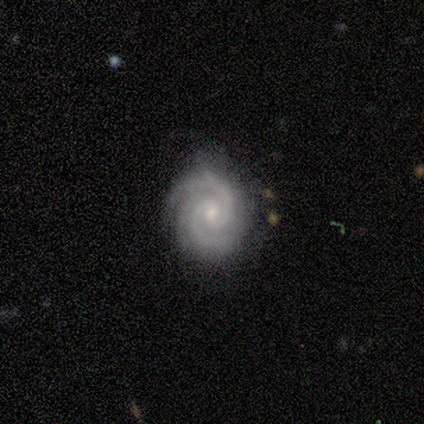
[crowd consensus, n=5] Q: Smooth or featured?
A: featured or disk (100%)
Q: Edge-on disk?
A: no (100%)
Q: Bar?
A: weak (60%); runner-up: no (40%)
Q: Spiral arms?
A: yes (100%)
Q: Spiral winding?
A: tight (60%); runner-up: medium (40%)
Q: Spiral arm count?
A: 2 (60%); runner-up: 3 (20%)
Q: Bulge size?
A: small (60%); runner-up: moderate (40%)
Q: Merging?
A: none (60%); runner-up: minor disturbance (40%)